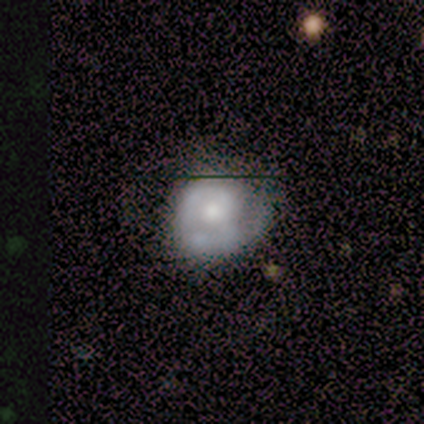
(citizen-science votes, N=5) Smooth or featured?
  - featured or disk: 60% *
  - smooth: 20%
  - star or artifact: 20%
Edge-on disk?
  - no: 100% *
  - yes: 0%
Bar?
  - no: 67% *
  - weak: 33%
  - strong: 0%
Spiral arms?
  - yes: 67% *
  - no: 33%
Spiral winding?
  - tight: 50% * (tied)
  - medium: 50% * (tied)
  - loose: 0%
Spiral arm count?
  - 1: 50% * (tied)
  - can't tell: 50% * (tied)
  - 2: 0%
  - 3: 0%
  - 4: 0%
  - more than 4: 0%
Bulge size?
  - large: 33% * (tied)
  - moderate: 33% * (tied)
  - small: 33% * (tied)
  - dominant: 0%
  - none: 0%
Merging?
  - major disturbance: 50% *
  - none: 25%
  - minor disturbance: 25%
  - merger: 0%